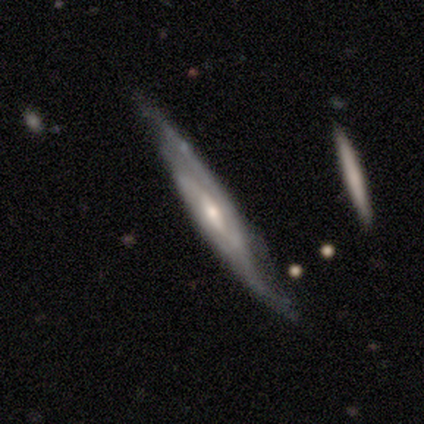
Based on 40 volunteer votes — Morphology: type=featured or disk (82%); edge-on=yes (58%); edge-on bulge=rounded (53%); merging=none (59%).